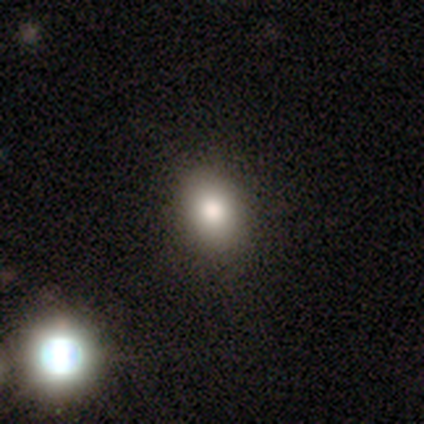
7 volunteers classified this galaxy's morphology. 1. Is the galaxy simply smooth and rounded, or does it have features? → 86% smooth, 14% star or artifact, 0% featured or disk.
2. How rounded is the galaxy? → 67% in between, 33% round, 0% cigar-shaped.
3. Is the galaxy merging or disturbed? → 100% none, 0% minor disturbance, 0% major disturbance, 0% merger.